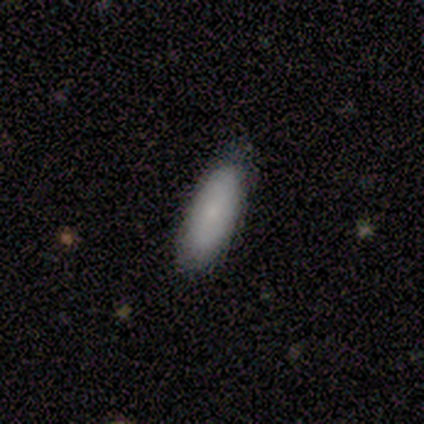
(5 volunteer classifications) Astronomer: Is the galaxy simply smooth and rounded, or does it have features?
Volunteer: smooth — 40%, tied with featured or disk at 40%.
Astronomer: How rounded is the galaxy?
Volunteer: in between — 100%.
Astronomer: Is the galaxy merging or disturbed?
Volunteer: none — 75%.